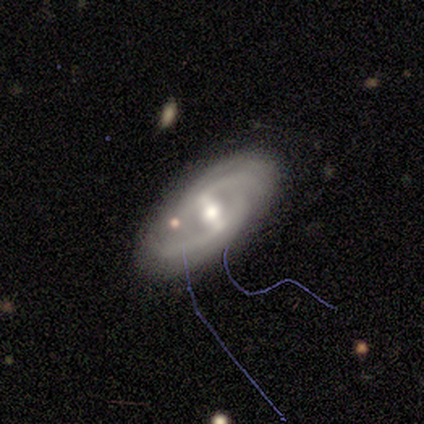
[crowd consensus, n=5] A featured or disk galaxy (100%) with a strong bar (60%), tight (50%, tied with medium) spiral arms (80%) and a moderate central bulge (100%).

Vote fractions:
- Smooth or featured? featured or disk: 100% / smooth: 0% / star or artifact: 0%
- Edge-on disk? no: 100% / yes: 0%
- Bar? strong: 60% / weak: 20% / no: 20%
- Spiral arms? yes: 80% / no: 20%
- Spiral winding? tight: 50% (tied) / medium: 50% (tied) / loose: 0%
- Spiral arm count? can't tell: 75% / 3: 25% / 1: 0% / 2: 0% / 4: 0% / more than 4: 0%
- Bulge size? moderate: 100% / dominant: 0% / large: 0% / small: 0% / none: 0%
- Merging? none: 100% / minor disturbance: 0% / major disturbance: 0% / merger: 0%